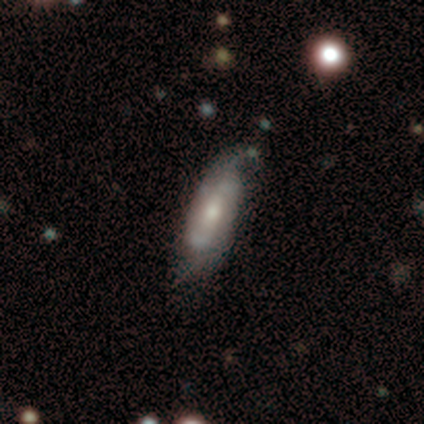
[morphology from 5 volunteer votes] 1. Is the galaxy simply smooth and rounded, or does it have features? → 60% smooth, 40% featured or disk, 0% star or artifact.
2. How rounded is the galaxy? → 67% cigar-shaped, 33% in between, 0% round.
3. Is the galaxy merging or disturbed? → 60% none, 20% minor disturbance, 20% major disturbance, 0% merger.